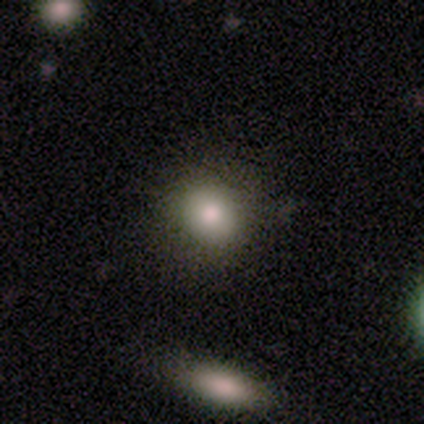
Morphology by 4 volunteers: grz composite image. It shows a smooth galaxy with no disk features (75%) that is round (67%). Merging: minor disturbance (75%).